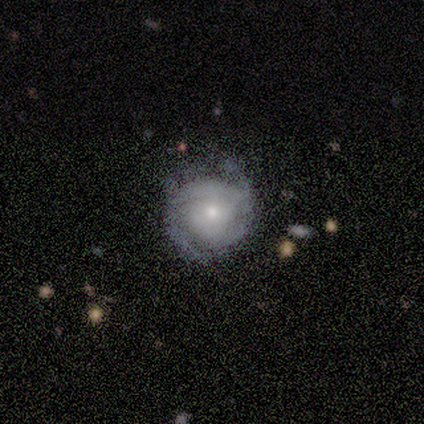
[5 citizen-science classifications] A featured or disk galaxy (80%) with no bar (75%), 2 (50%) tight (75%) spiral arms (100%) and a moderate central bulge (75%). Merging: none (80%).